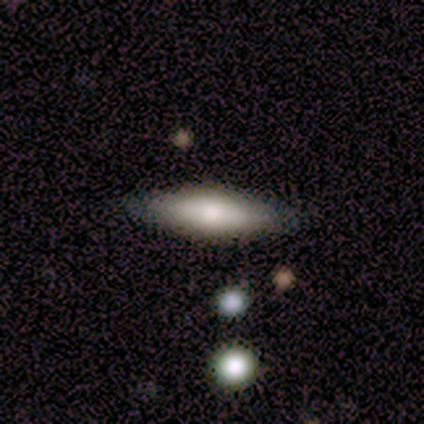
smooth-or-featured: smooth: 50% | featured or disk: 38% | star or artifact: 12%
  how-rounded: in between: 50% (tied) | cigar-shaped: 50% (tied) | round: 0%
  merging: none: 86% | minor disturbance: 14% | major disturbance: 0% | merger: 0%